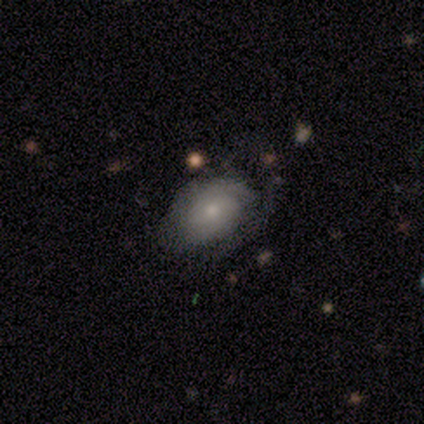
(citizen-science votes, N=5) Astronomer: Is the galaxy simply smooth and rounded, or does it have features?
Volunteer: smooth — 60% (runner-up: featured or disk, 40%).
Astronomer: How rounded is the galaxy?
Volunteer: in between — 100%.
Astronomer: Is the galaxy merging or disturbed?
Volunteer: minor disturbance — 60% (runner-up: none, 40%).